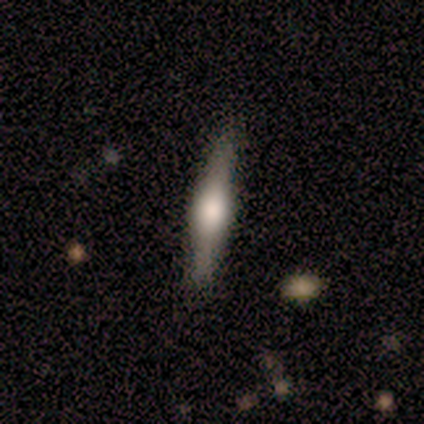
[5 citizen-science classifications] Smooth or featured?
  - featured or disk: 80% *
  - smooth: 20%
  - star or artifact: 0%
Edge-on disk?
  - yes: 100% *
  - no: 0%
Edge-on bulge?
  - rounded: 75% *
  - boxy: 25%
  - none: 0%
Merging?
  - none: 100% *
  - minor disturbance: 0%
  - major disturbance: 0%
  - merger: 0%